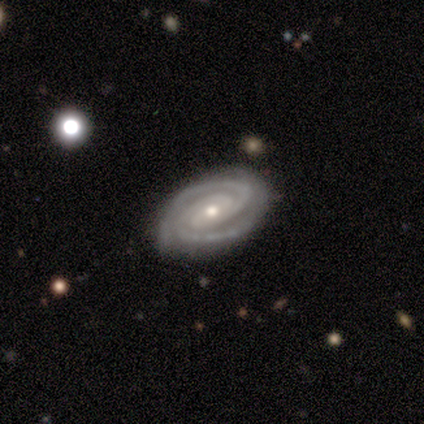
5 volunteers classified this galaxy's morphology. smooth_or_featured: featured or disk (p=1.00)
disk_edge_on: no (p=1.00)
bar: weak (p=0.40) [tied with: no p=0.40]
has_spiral_arms: yes (p=1.00)
spiral_winding: tight (p=0.80) [alt: medium p=0.20]
spiral_arm_count: 2 (p=0.60) [alt: 3 p=0.20]
bulge_size: moderate (p=0.60) [alt: small p=0.40]
merging: none (p=1.00)